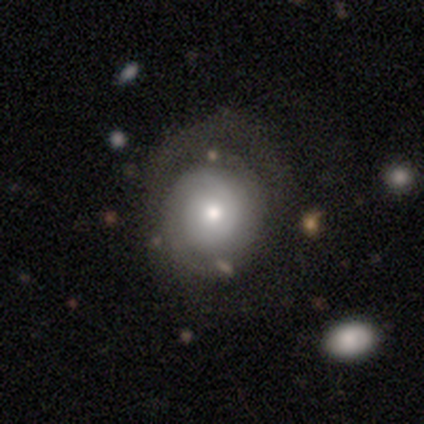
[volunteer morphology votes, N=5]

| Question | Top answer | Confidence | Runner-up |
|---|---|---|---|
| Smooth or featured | smooth | 80% | featured or disk (20%) |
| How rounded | round | 100% | — |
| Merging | none | 100% | — |